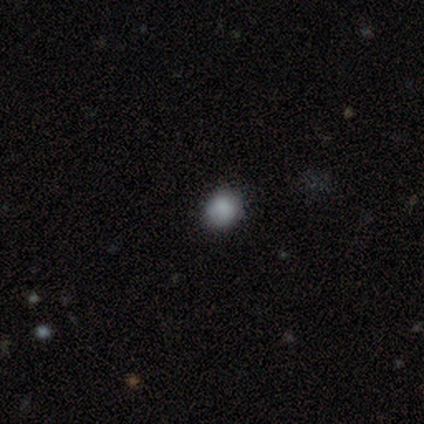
smooth-or-featured: smooth: 75% | star or artifact: 25% | featured or disk: 0%
  how-rounded: round: 100% | in between: 0% | cigar-shaped: 0%
  merging: none: 100% | minor disturbance: 0% | major disturbance: 0% | merger: 0%